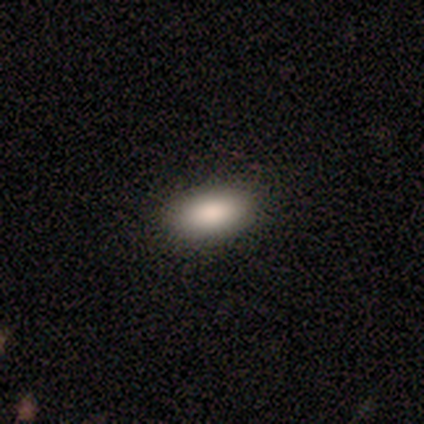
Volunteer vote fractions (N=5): Smooth or featured? smooth (80%)
How rounded? in between (100%)
Merging? none (100%)